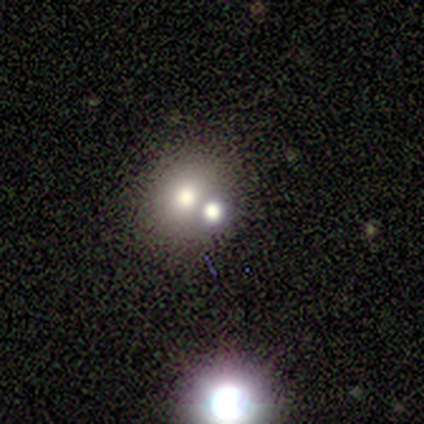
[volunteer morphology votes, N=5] Overall: featured or disk (60%; smooth 20%). Edge-on disk: no (100%). Bar: no (100%). Spiral arms: no (100%). Bulge size: moderate (67%; large 33%). Merging: none (75%).